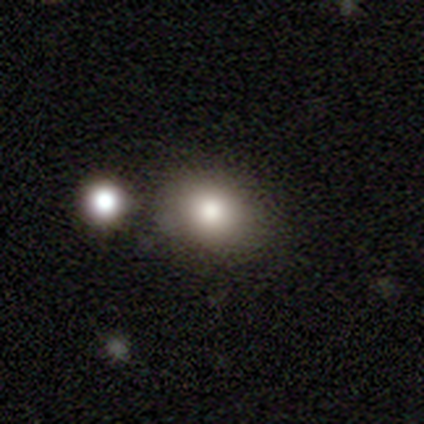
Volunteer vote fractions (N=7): Volunteers were most divided on "how rounded" (2-way tie): round: 50%, in between: 50%, cigar-shaped: 0%. More confident: merging — minor disturbance (60%); smooth or featured — smooth (57%).